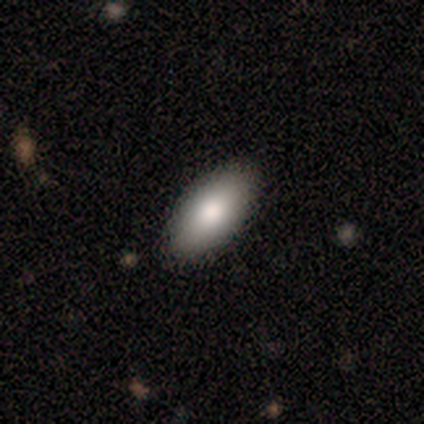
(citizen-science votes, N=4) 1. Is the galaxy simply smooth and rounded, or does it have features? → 100% smooth, 0% featured or disk, 0% star or artifact.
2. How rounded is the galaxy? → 100% in between, 0% round, 0% cigar-shaped.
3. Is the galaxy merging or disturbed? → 75% none, 25% minor disturbance, 0% major disturbance, 0% merger.